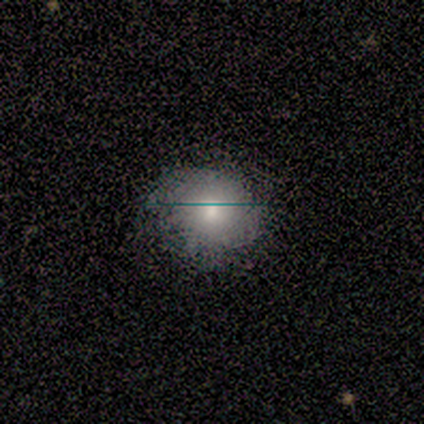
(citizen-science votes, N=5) Smooth or featured: smooth — 60% (featured or disk — 40%)
How rounded: round — 67% (in between — 33%)
Merging: minor disturbance — 60% (none — 40%)